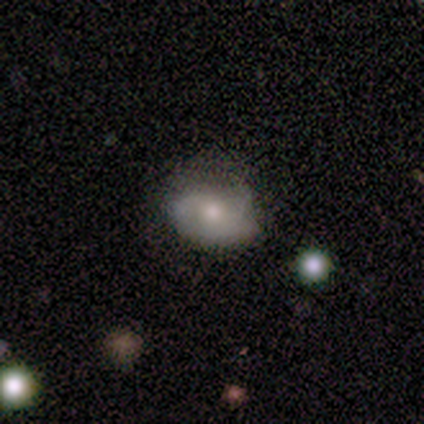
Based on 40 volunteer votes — Smooth or featured? 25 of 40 (62%) said smooth. How rounded? 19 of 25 (76%) said in between. Merging? 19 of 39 (49%) said none.